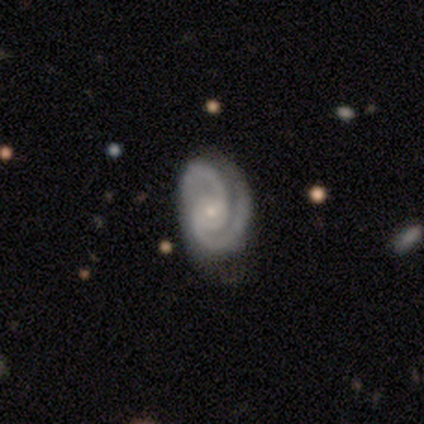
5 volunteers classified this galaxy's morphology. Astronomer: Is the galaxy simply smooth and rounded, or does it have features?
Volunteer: featured or disk — 100%.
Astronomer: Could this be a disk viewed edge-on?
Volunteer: no — 100%.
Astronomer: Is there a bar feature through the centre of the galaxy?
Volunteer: no — 100%.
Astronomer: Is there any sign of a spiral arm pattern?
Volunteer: yes — 100%.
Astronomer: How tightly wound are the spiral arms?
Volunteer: tight — 60% (runner-up: medium, 40%).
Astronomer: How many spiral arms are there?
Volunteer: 2 — 100%.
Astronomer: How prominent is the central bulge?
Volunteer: small — 80%.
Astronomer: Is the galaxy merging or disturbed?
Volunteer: none — 80%.